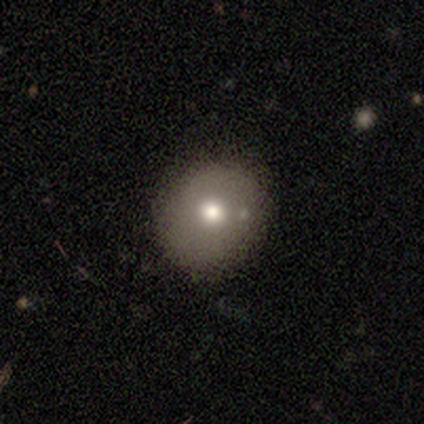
smooth 72%, star or artifact 15%, featured or disk 12%. Down the decision tree: how rounded — round (69%); merging — none (71%).